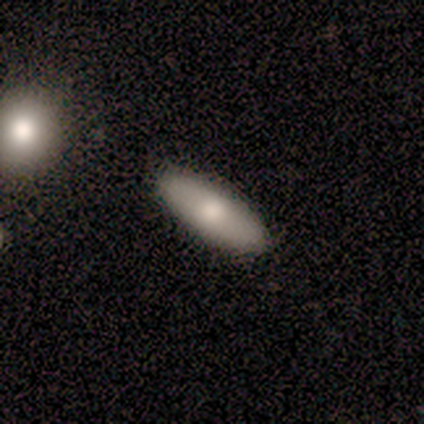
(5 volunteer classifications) Overall: smooth (80%). How rounded: cigar-shaped (75%). Merging: none (100%).